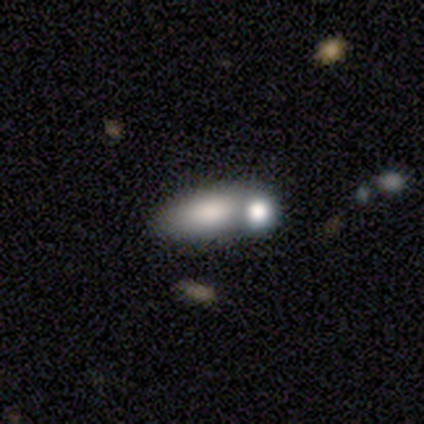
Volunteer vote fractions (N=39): A smooth galaxy with no disk features (69%) that is in between round and cigar-shaped (89%). Merging: merger (56%).